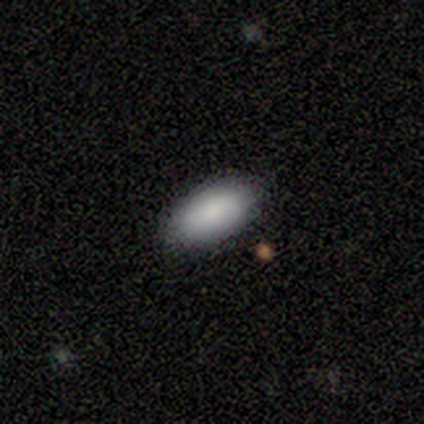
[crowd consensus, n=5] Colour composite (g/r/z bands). It shows a smooth galaxy with no disk features (100%) that is in between round and cigar-shaped (80%). Merging: none (100%).